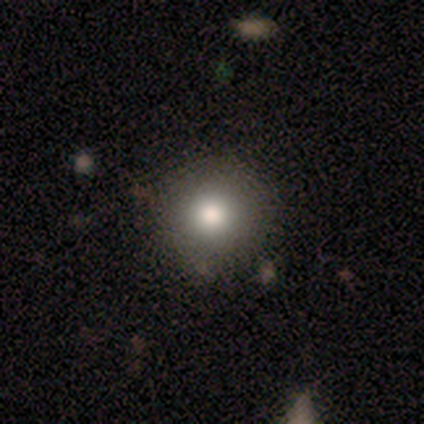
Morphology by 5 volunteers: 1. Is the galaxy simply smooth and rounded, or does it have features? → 100% smooth, 0% featured or disk, 0% star or artifact.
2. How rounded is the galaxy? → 100% round, 0% in between, 0% cigar-shaped.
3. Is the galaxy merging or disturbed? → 100% none, 0% minor disturbance, 0% major disturbance, 0% merger.